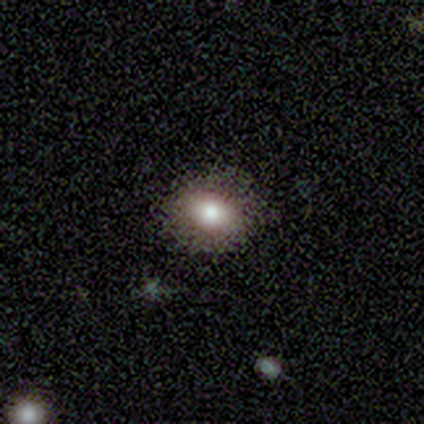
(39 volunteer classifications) Smooth or featured? 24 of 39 (62%) said smooth. How rounded? 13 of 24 (54%) said in between. Merging? 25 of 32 (78%) said none.